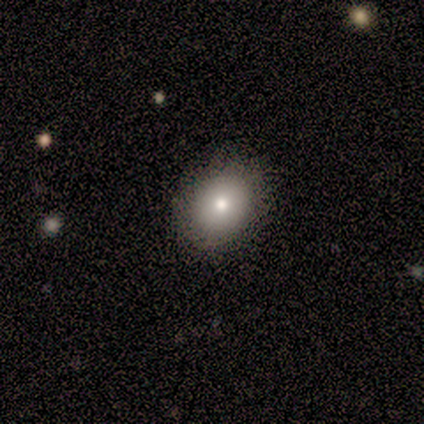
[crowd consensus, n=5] Volunteers were most divided on "how rounded" (2-way tie): round: 50%, in between: 50%, cigar-shaped: 0%. More confident: merging — none (100%); smooth or featured — smooth (80%).